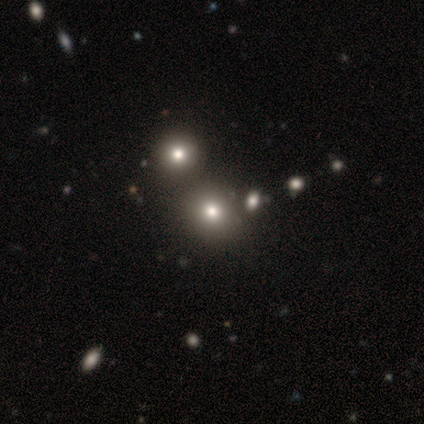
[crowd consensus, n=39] Overall: smooth (59%; star or artifact 36%). How rounded: round (83%). Merging: none (76%).